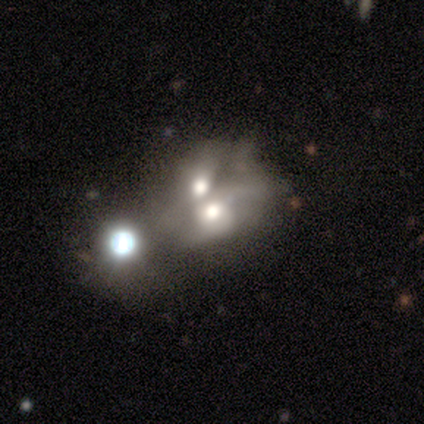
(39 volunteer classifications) Smooth or featured?
  - smooth: 44% * (tied)
  - featured or disk: 44% * (tied)
  - star or artifact: 13%
How rounded?
  - in between: 59% *
  - round: 41%
  - cigar-shaped: 0%
Merging?
  - merger: 79% *
  - major disturbance: 6%
  - none: 0%
  - minor disturbance: 0%